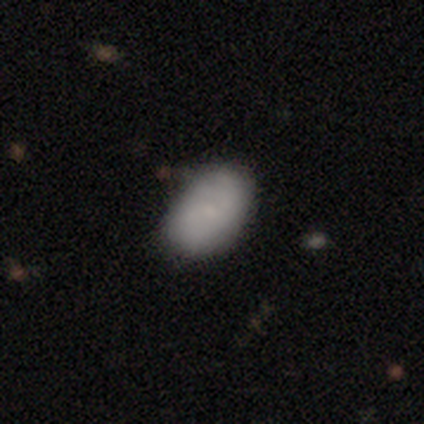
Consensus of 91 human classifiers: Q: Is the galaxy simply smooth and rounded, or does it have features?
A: smooth — 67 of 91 (74%).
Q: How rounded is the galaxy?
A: in between — 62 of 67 (93%).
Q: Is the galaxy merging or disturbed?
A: none — 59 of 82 (72%).